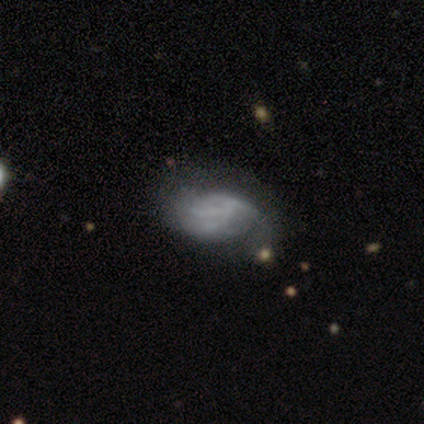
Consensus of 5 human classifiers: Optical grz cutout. It shows a smooth galaxy with no disk features (40%, tied with featured or disk) that is in between round and cigar-shaped (100%). Merging: none (50%).